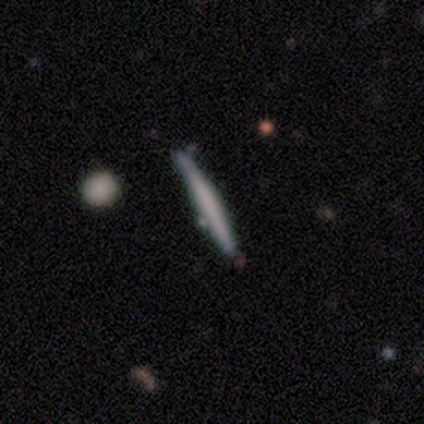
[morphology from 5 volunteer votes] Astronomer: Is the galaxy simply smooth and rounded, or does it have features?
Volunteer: smooth — 60% (runner-up: featured or disk, 40%).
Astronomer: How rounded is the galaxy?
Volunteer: cigar-shaped — 100%.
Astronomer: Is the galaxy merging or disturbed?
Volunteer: none — 100%.